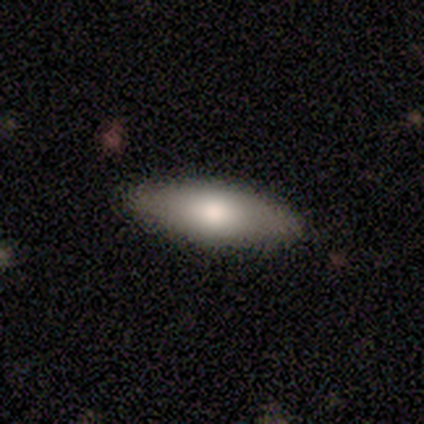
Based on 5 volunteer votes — A smooth galaxy with no disk features (60%) that is in between round and cigar-shaped (100%).

Vote fractions:
- Smooth or featured? smooth: 60% / featured or disk: 40% / star or artifact: 0%
- How rounded? in between: 100% / round: 0% / cigar-shaped: 0%
- Merging? none: 60% / minor disturbance: 40% / major disturbance: 0% / merger: 0%